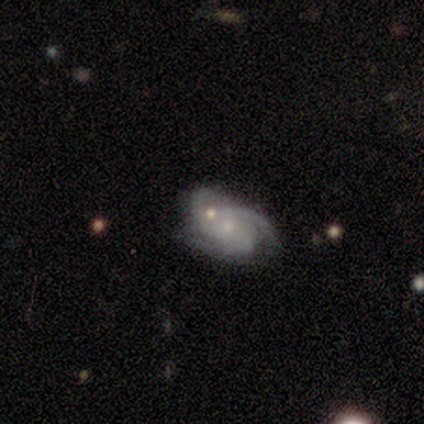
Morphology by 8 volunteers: Smooth or featured? 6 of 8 (75%) said featured or disk. Edge-on disk? 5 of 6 (83%) said no. Bar? 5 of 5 (100%) said no. Spiral arms? 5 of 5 (100%) said yes. Spiral winding? 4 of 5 (80%) said medium. Spiral arm count? 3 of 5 (60%) said 3. Bulge size? 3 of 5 (60%) said small. Merging? 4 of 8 (50%) said none.